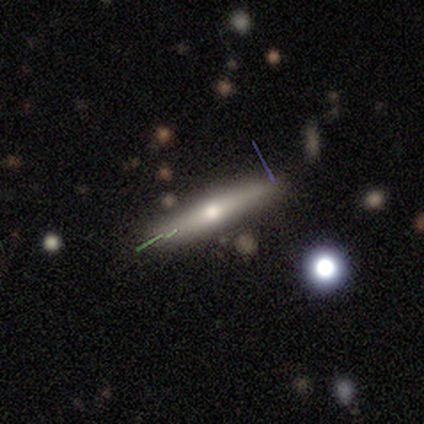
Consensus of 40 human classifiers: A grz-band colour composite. It shows a featured or disk galaxy (60%) viewed edge-on (83%) with a rounded central bulge (90%). Merging: none (86%).